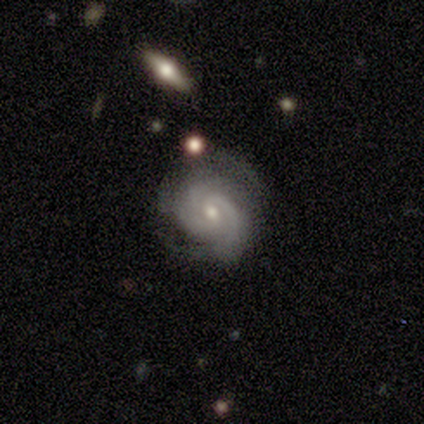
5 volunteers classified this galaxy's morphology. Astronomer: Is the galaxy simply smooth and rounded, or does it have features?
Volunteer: featured or disk — 80%.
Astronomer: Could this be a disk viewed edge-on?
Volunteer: no — 100%.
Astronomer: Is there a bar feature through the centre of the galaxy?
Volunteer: weak — 75%.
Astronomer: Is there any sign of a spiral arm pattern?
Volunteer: yes — 100%.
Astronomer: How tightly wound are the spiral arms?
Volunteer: medium — 75%.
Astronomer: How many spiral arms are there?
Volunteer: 2 — 75%.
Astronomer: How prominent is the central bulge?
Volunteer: moderate — 75%.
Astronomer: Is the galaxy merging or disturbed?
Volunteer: none — 40%, tied with minor disturbance at 40%.